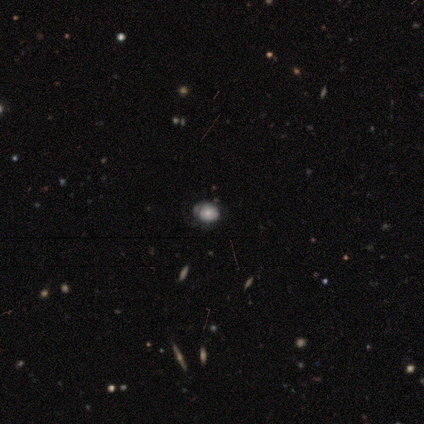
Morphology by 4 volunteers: smooth_or_featured: smooth (p=0.50) [alt: featured or disk p=0.25]
how_rounded: round (p=0.50) [tied with: in between p=0.50]
merging: minor disturbance (p=0.67) [alt: major disturbance p=0.33]